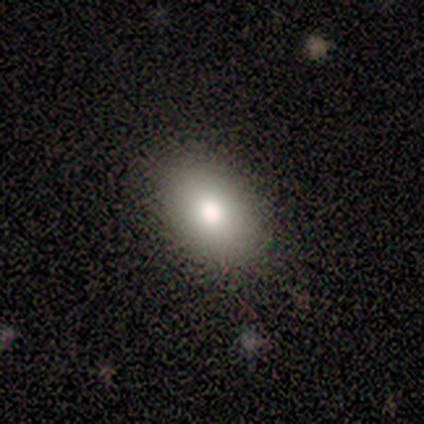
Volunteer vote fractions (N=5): Q: Smooth or featured?
A: smooth (100%)
Q: How rounded?
A: in between (100%)
Q: Merging?
A: none (60%); runner-up: minor disturbance (40%)